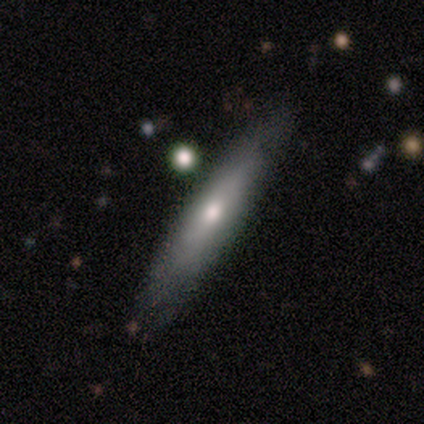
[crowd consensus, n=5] Smooth or featured: smooth — 80% (featured or disk — 20%)
How rounded: in between — 50% (tied with cigar-shaped — 50%)
Merging: none — 80% (minor disturbance — 20%)